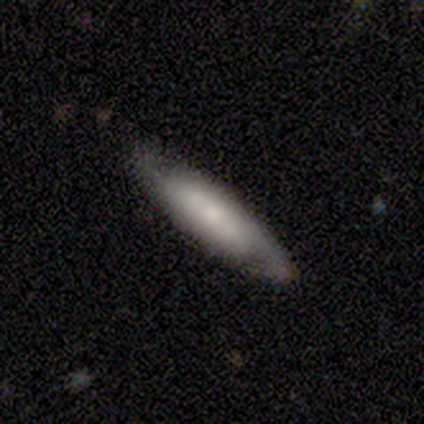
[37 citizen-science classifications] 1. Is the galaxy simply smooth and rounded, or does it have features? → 57% smooth, 41% featured or disk, 3% star or artifact.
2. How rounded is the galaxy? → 76% cigar-shaped, 19% in between, 5% round.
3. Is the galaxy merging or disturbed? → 78% none, 19% minor disturbance, 3% major disturbance, 0% merger.